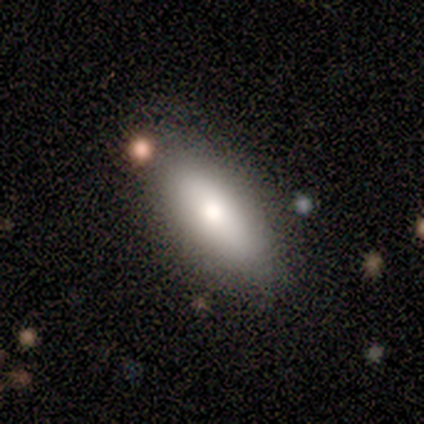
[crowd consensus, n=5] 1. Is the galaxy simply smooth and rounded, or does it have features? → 100% smooth, 0% featured or disk, 0% star or artifact.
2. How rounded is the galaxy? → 80% in between, 20% cigar-shaped, 0% round.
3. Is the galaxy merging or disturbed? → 60% minor disturbance, 40% none, 0% major disturbance, 0% merger.